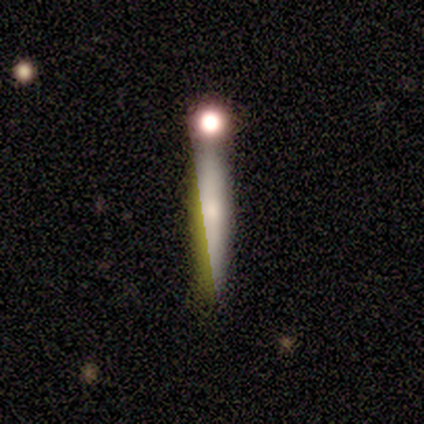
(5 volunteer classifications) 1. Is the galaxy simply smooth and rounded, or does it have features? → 60% smooth, 20% featured or disk, 20% star or artifact.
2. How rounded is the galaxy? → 100% cigar-shaped, 0% round, 0% in between.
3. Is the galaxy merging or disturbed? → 100% none, 0% minor disturbance, 0% major disturbance, 0% merger.